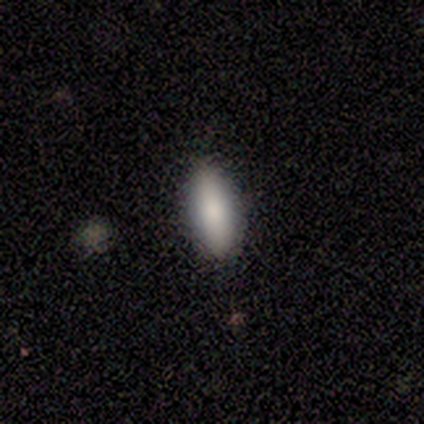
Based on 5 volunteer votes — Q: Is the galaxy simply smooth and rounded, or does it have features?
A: smooth — 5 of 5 (100%).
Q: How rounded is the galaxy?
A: in between — 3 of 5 (60%).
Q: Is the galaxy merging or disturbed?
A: none — 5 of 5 (100%).